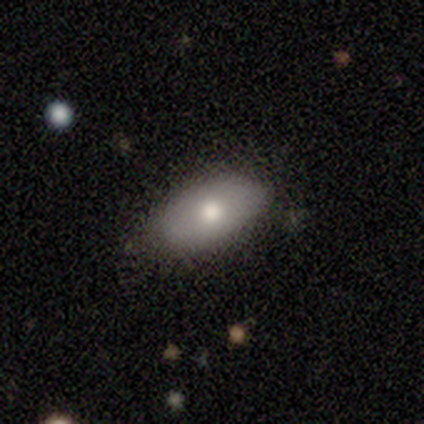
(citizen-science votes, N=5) This is likely a featured or disk galaxy (60%). It is clearly not viewed edge-on (100%). Bar: clearly no (100%). Spiral arm pattern: clearly no (100%). Central bulge: likely moderate (67%). Merging: clearly none (80%).